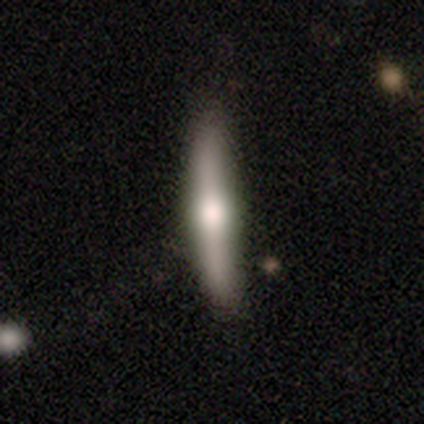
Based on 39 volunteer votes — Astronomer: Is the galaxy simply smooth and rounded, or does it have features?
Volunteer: featured or disk — 59% (runner-up: smooth, 41%).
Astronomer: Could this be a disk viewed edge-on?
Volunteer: yes — 96%.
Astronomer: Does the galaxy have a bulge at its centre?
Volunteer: rounded — 82%.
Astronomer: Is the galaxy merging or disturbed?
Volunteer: none — 38%.